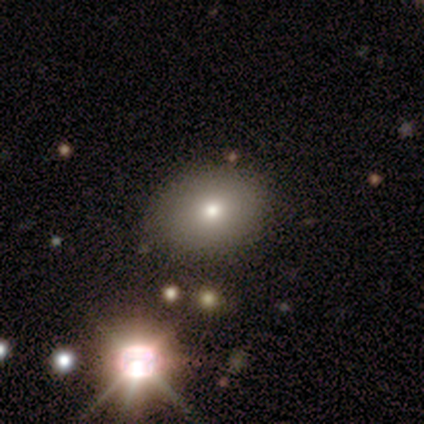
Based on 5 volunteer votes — Overall: smooth (80%). How rounded: in between (75%). Merging: none (50%, tied with minor disturbance).